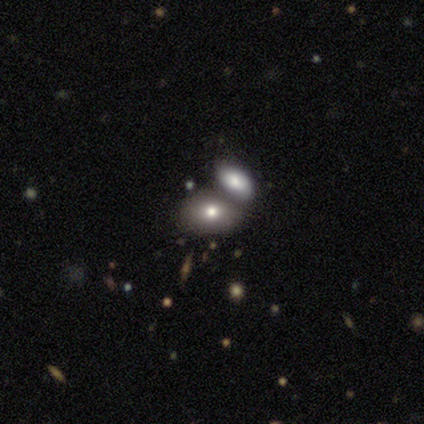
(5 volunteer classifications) This is clearly a smooth galaxy (80%). How rounded: clearly in between (100%). Merging: likely merger (60%).